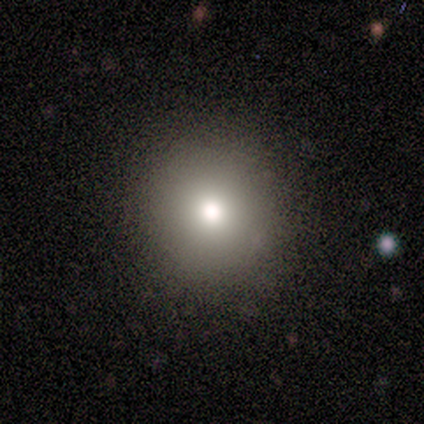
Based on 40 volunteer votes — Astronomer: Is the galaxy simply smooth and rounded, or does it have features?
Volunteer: smooth — 82%.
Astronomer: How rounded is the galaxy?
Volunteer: round — 94%.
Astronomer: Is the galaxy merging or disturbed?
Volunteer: none — 89%.